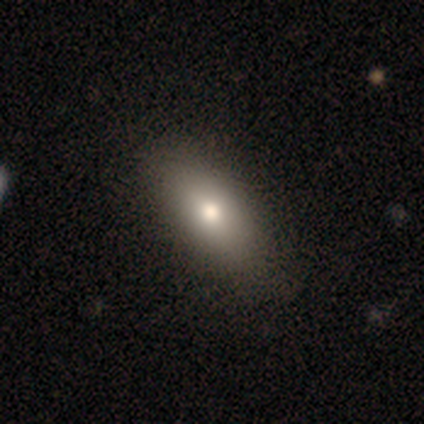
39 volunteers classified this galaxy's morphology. Volunteers were most divided on "smooth or featured": smooth: 79%, featured or disk: 15%, star or artifact: 5%. More confident: how rounded — in between (87%); merging — none (73%).